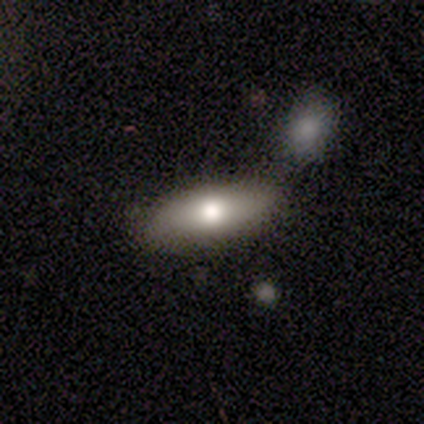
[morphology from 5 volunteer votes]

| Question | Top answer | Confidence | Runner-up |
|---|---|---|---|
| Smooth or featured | smooth | 100% | — |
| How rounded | in between | 80% | cigar-shaped (20%) |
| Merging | none | 80% | minor disturbance (20%) |